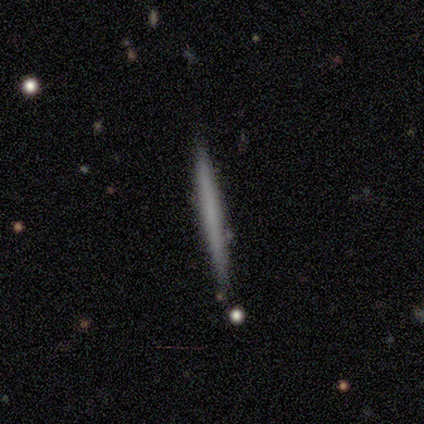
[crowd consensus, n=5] Smooth or featured?
  - smooth: 60% *
  - featured or disk: 40%
  - star or artifact: 0%
How rounded?
  - cigar-shaped: 100% *
  - round: 0%
  - in between: 0%
Merging?
  - none: 80% *
  - minor disturbance: 20%
  - major disturbance: 0%
  - merger: 0%